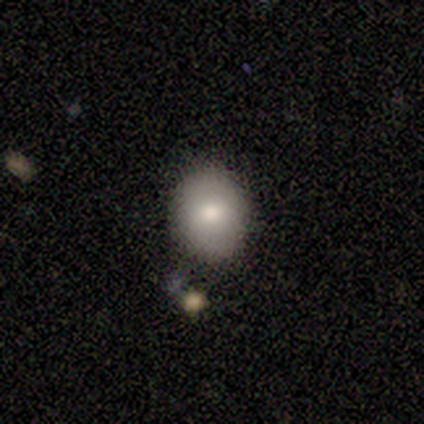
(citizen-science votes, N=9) This appears to be a smooth galaxy with no disk features (100%) that is in between round and cigar-shaped (67%). Merging: none (89%).